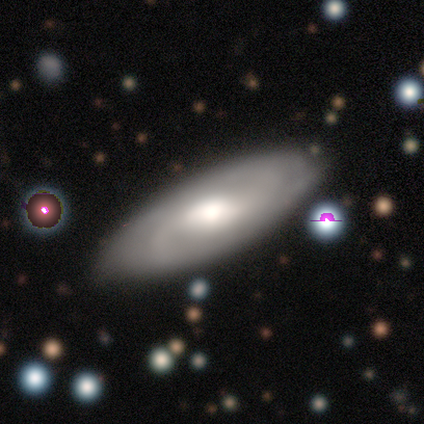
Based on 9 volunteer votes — Smooth or featured: featured or disk — 100%
Edge-on disk: no — 89% (yes — 11%)
Bar: no — 50% (weak — 38%)
Spiral arms: yes — 100%
Spiral winding: medium — 62% (tight — 25%)
Spiral arm count: 2 — 50% (can't tell — 38%)
Bulge size: large — 50% (tied with moderate — 50%)
Merging: none — 78% (minor disturbance — 22%)